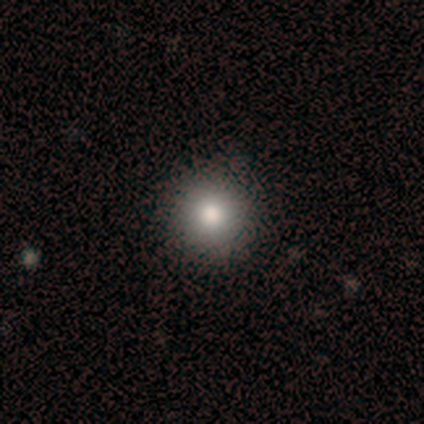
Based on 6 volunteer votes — This is clearly a smooth galaxy (100%). How rounded: clearly round (100%). Merging: clearly none (100%).